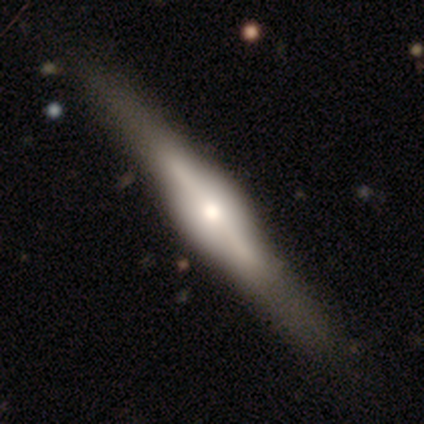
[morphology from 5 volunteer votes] Volunteers were most divided on "edge-on bulge": rounded: 75%, boxy: 25%, none: 0%. More confident: edge-on disk — yes (100%); smooth or featured — featured or disk (80%); merging — none (80%).